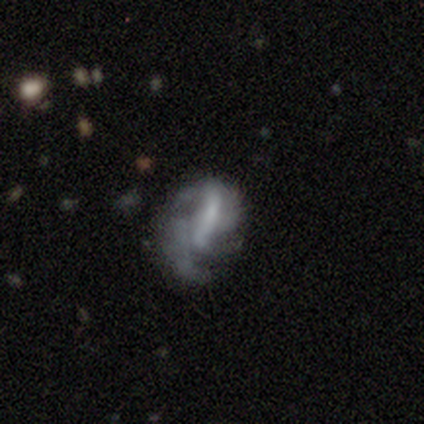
Smooth or featured?
  - featured or disk: 78% *
  - smooth: 11%
  - star or artifact: 11%
Edge-on disk?
  - no: 97% *
  - yes: 3%
Bar?
  - strong: 43% *
  - no: 32%
  - weak: 25%
Spiral arms?
  - yes: 54% *
  - no: 46%
Spiral winding?
  - medium: 40% * (tied)
  - loose: 40% * (tied)
  - tight: 20%
Spiral arm count?
  - 2: 47% *
  - can't tell: 33%
  - 1: 7%
  - 3: 7%
  - more than 4: 7%
  - 4: 0%
Bulge size?
  - small: 43% * (tied)
  - none: 43% * (tied)
  - moderate: 7%
  - dominant: 4%
  - large: 4%
Merging?
  - none: 39% *
  - minor disturbance: 33%
  - major disturbance: 15%
  - merger: 12%